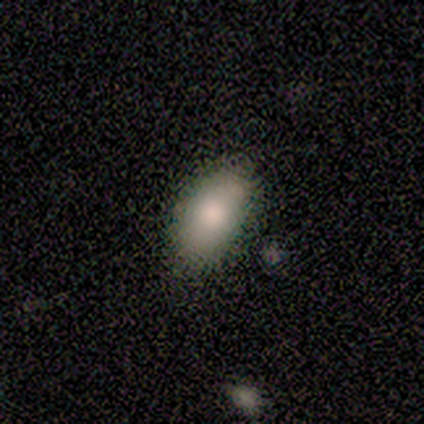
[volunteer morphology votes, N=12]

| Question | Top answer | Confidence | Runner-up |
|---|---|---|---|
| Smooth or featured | smooth | 100% | — |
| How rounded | in between | 100% | — |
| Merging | none | 67% | minor disturbance (33%) |